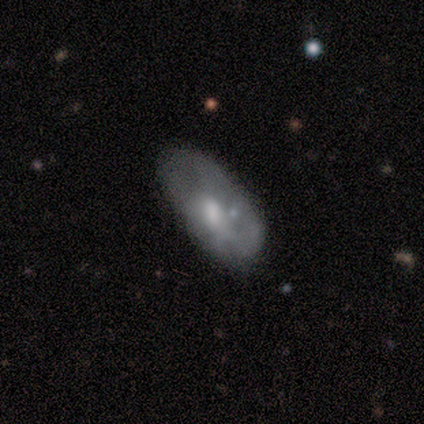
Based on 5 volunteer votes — Volunteers were most divided on "smooth or featured": smooth: 60%, featured or disk: 40%, star or artifact: 0%. More confident: how rounded — in between (100%); merging — none (80%).